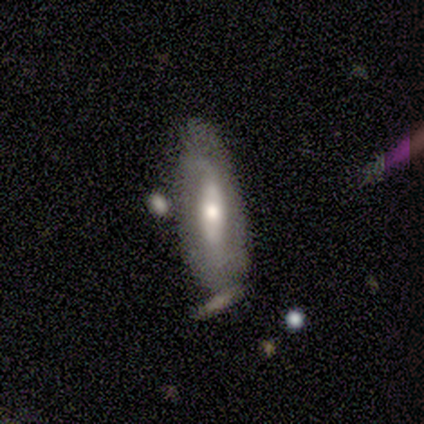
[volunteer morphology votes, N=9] Smooth or featured? featured or disk (67%)
Edge-on disk? no (83%)
Bar? strong (60%)
Spiral arms? no (60%)
Bulge size? moderate (100%)
Merging? none (67%)